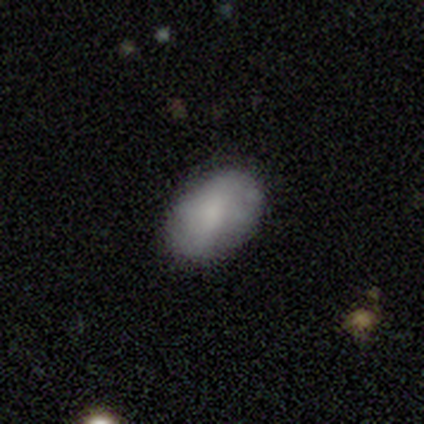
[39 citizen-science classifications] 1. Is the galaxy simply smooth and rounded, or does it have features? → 69% smooth, 23% featured or disk, 8% star or artifact.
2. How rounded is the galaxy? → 89% in between, 11% round, 0% cigar-shaped.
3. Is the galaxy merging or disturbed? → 86% none, 11% minor disturbance, 3% major disturbance, 0% merger.